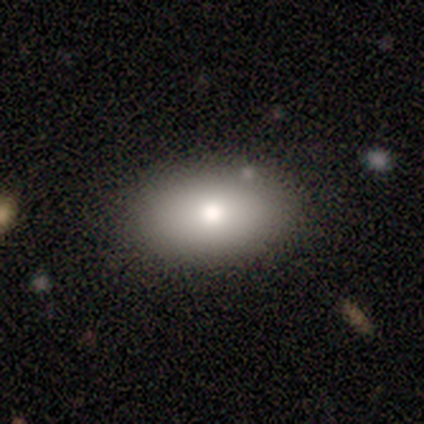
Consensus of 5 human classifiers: A smooth galaxy with no disk features (80%) that is in between round and cigar-shaped (100%). Merging: none (80%).